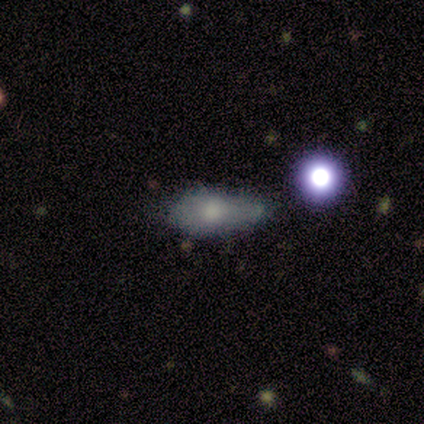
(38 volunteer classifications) Smooth or featured? 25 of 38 (66%) said smooth. How rounded? 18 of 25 (72%) said in between. Merging? 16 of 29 (55%) said minor disturbance.